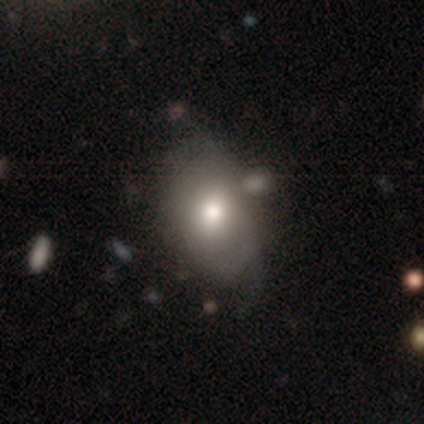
Smooth or featured?
  - smooth: 80% *
  - featured or disk: 20%
  - star or artifact: 0%
How rounded?
  - in between: 75% *
  - round: 25%
  - cigar-shaped: 0%
Merging?
  - none: 60% *
  - minor disturbance: 20%
  - merger: 20%
  - major disturbance: 0%